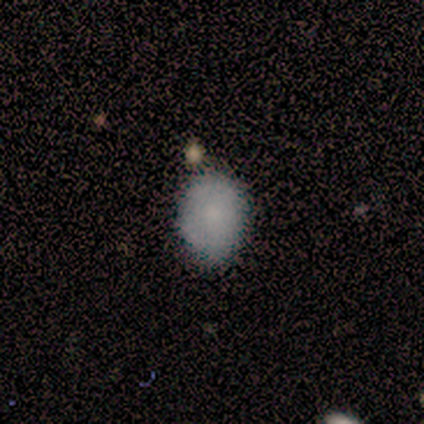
A smooth galaxy with no disk features (71%) that is round (60%).

Vote fractions:
- Smooth or featured? smooth: 71% / featured or disk: 14% / star or artifact: 14%
- How rounded? round: 60% / in between: 40% / cigar-shaped: 0%
- Merging? none: 67% / minor disturbance: 33% / major disturbance: 0% / merger: 0%